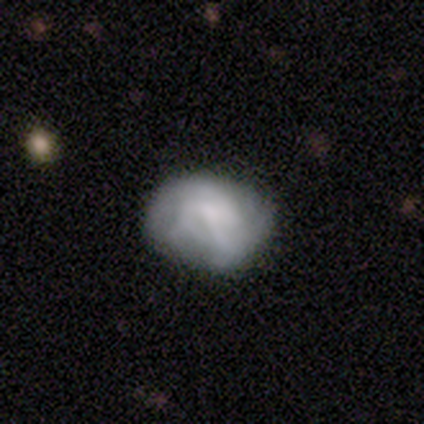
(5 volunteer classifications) Volunteers were most divided on "merging": none: 50%, minor disturbance: 25%, major disturbance: 25%, merger: 0%. More confident: smooth or featured — smooth (80%); how rounded — round (75%).